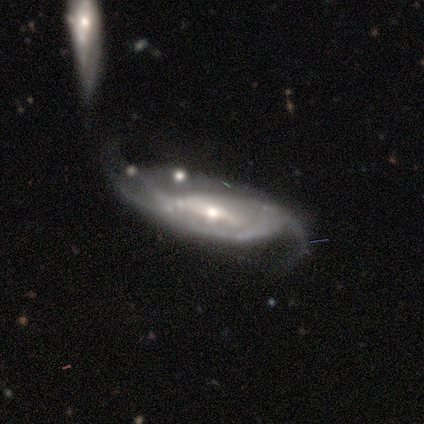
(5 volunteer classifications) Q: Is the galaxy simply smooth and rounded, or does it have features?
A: featured or disk — 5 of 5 (100%).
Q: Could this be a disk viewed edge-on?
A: no — 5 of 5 (100%).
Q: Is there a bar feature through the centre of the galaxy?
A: weak — 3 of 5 (60%).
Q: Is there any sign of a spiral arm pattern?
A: yes — 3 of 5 (60%).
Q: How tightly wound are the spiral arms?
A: loose — 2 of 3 (67%).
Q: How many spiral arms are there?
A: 2 — 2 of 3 (67%).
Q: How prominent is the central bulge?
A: moderate — 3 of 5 (60%).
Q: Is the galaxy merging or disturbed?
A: none — 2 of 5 (40%, tied with major disturbance).